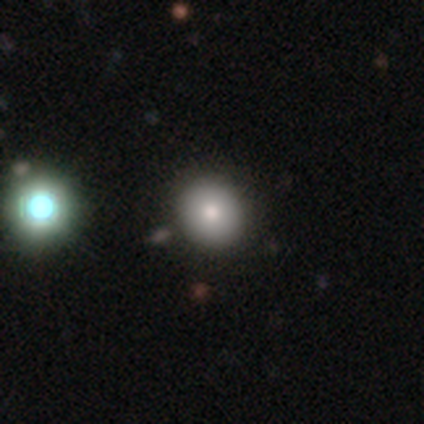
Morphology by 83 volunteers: smooth-or-featured: smooth: 80% | star or artifact: 13% | featured or disk: 7%
  how-rounded: round: 86% | in between: 14% | cigar-shaped: 0%
  merging: none: 94% | major disturbance: 3% | minor disturbance: 1% | merger: 1%